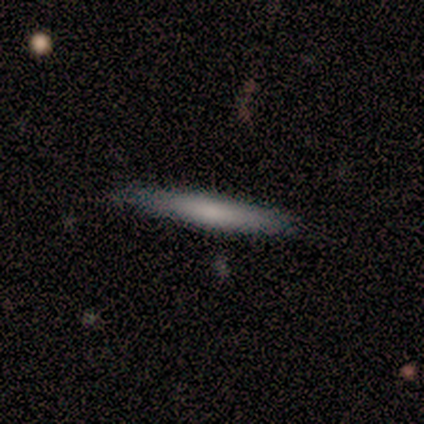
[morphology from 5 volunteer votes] Smooth or featured?
  - smooth: 60% *
  - featured or disk: 40%
  - star or artifact: 0%
How rounded?
  - cigar-shaped: 100% *
  - round: 0%
  - in between: 0%
Merging?
  - none: 80% *
  - minor disturbance: 20%
  - major disturbance: 0%
  - merger: 0%